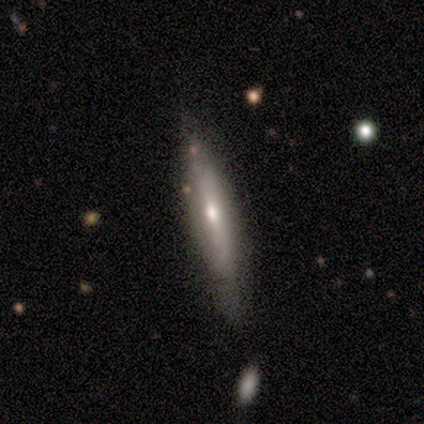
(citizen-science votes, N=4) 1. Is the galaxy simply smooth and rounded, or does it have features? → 75% featured or disk, 25% star or artifact, 0% smooth.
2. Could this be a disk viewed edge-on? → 100% yes, 0% no.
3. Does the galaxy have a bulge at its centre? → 67% rounded, 33% none, 0% boxy.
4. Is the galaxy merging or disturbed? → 67% none, 33% minor disturbance, 0% major disturbance, 0% merger.